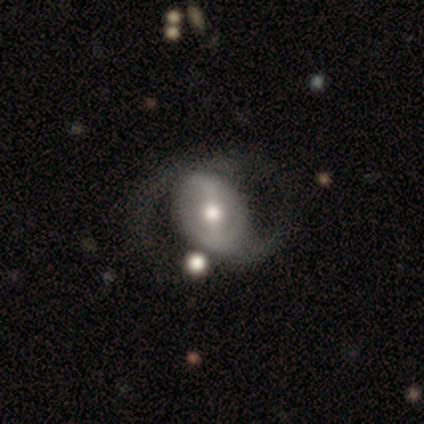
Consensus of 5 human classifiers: featured or disk 80%, smooth 20%, star or artifact 0%. Down the decision tree: edge-on disk — no (100%); bar — weak (50%); spiral arms — yes (50%, tied with no); spiral arm count — 1 (50%, tied with 2); spiral winding — medium (50%, tied with loose); bulge size — large (75%); merging — none (40%, tied with major disturbance).